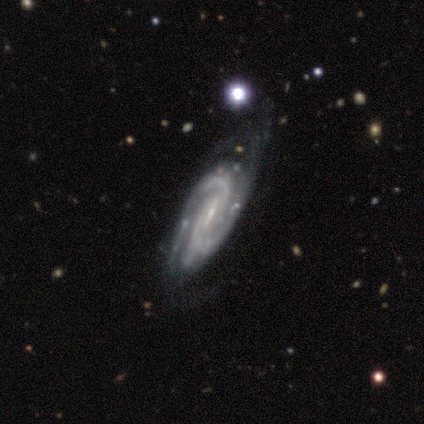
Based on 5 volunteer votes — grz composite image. It shows a featured or disk galaxy (100%) with a weak bar (100%), 2 (80%) medium (80%) spiral arms (100%) and a small central bulge (60%). Merging: major disturbance (60%).